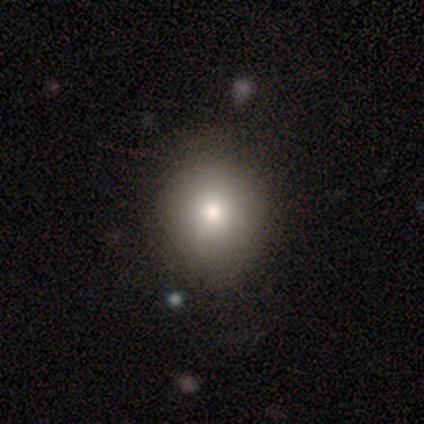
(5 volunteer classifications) A smooth galaxy with no disk features (40%, tied with star or artifact) that is round (100%).

Vote fractions:
- Smooth or featured? smooth: 40% (tied) / star or artifact: 40% (tied) / featured or disk: 20%
- How rounded? round: 100% / in between: 0% / cigar-shaped: 0%
- Merging? none: 33% (tied) / minor disturbance: 33% (tied) / major disturbance: 33% (tied) / merger: 0%